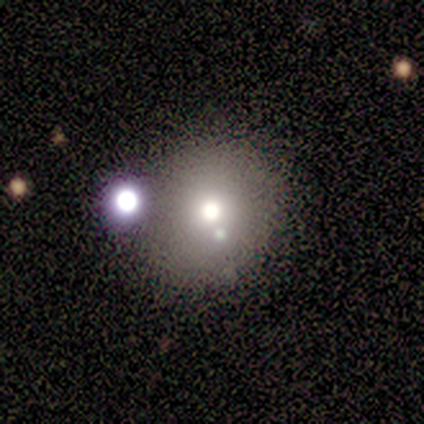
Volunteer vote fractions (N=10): smooth 60%, star or artifact 30%, featured or disk 10%. Down the decision tree: how rounded — round (83%); merging — none (43%, tied with minor disturbance).